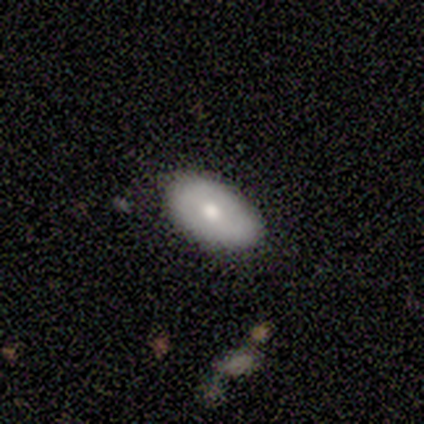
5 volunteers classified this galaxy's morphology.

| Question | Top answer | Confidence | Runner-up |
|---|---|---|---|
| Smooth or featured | smooth | 80% | featured or disk (20%) |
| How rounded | in between | 100% | — |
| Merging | none | 100% | — |